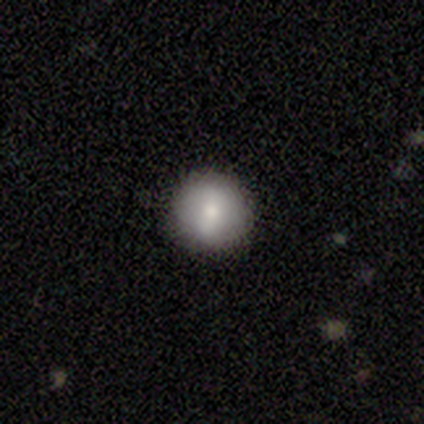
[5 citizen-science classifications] Morphology: type=smooth (100%); roundness=round (100%); merging=none (100%).